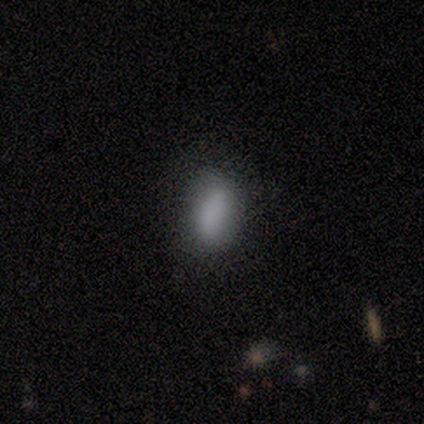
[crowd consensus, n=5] Smooth or featured: smooth — 100%
How rounded: in between — 80% (cigar-shaped — 20%)
Merging: none — 80% (minor disturbance — 20%)